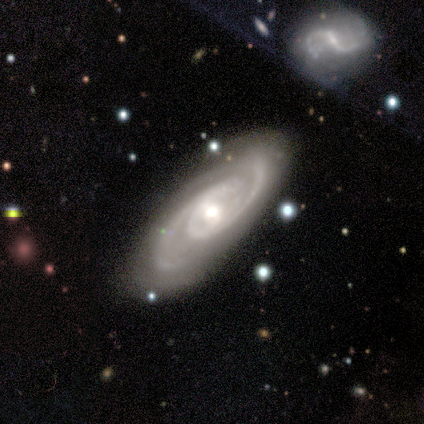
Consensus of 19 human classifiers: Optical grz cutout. It shows a featured or disk galaxy (89%) with no bar (50%), 2 (94%) medium (50%) spiral arms (100%) and a moderate central bulge (56%). Merging: none (89%).